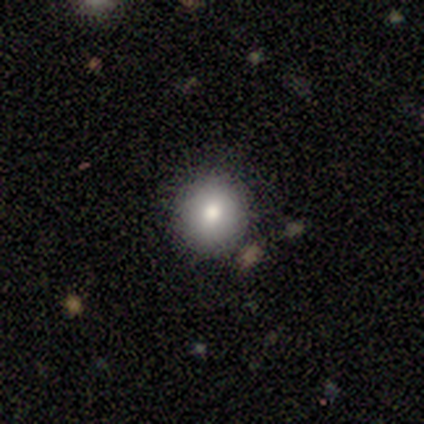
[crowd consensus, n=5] Q: Smooth or featured?
A: smooth (80%); runner-up: star or artifact (20%)
Q: How rounded?
A: round (100%)
Q: Merging?
A: none (100%)